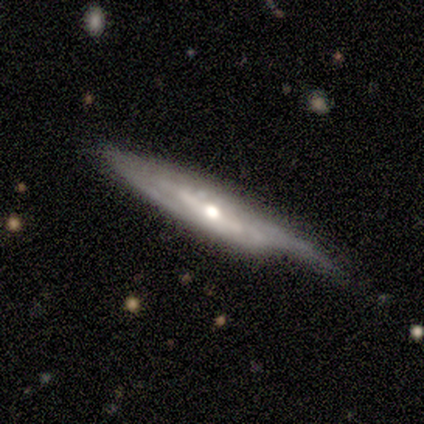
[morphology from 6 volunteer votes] Volunteers were most divided on "edge-on disk": yes: 67%, no: 33%. More confident: smooth or featured — featured or disk (100%); edge-on bulge — rounded (75%); merging — none (67%).